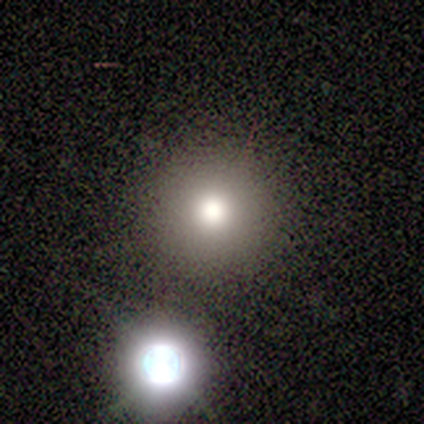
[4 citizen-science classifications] Volunteers were most divided on "merging": none: 67%, minor disturbance: 33%, major disturbance: 0%, merger: 0%. More confident: how rounded — round (100%); smooth or featured — smooth (75%).